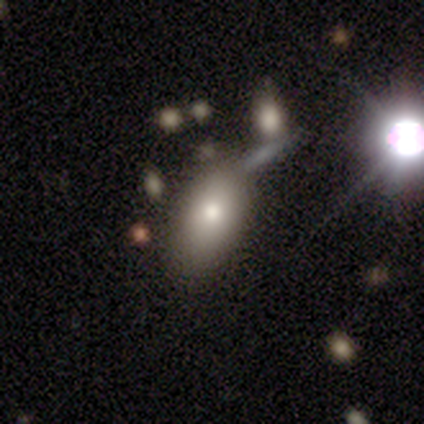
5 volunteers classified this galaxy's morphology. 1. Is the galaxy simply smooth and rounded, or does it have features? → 80% smooth, 20% featured or disk, 0% star or artifact.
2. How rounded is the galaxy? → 100% in between, 0% round, 0% cigar-shaped.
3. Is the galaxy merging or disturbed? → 80% none, 20% minor disturbance, 0% major disturbance, 0% merger.